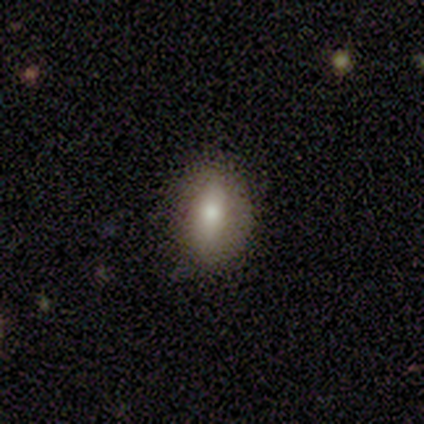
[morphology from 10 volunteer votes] Smooth or featured?
  - smooth: 80% *
  - featured or disk: 10%
  - star or artifact: 10%
How rounded?
  - in between: 88% *
  - cigar-shaped: 12%
  - round: 0%
Merging?
  - none: 100% *
  - minor disturbance: 0%
  - major disturbance: 0%
  - merger: 0%